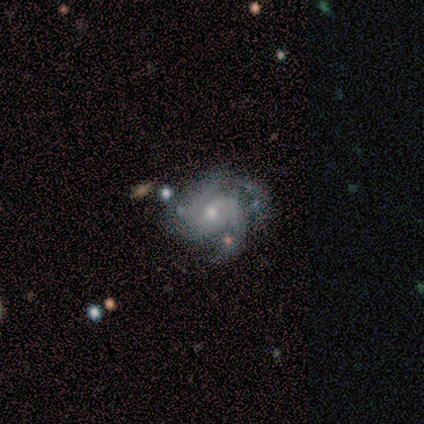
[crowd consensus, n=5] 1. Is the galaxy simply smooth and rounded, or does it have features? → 100% featured or disk, 0% smooth, 0% star or artifact.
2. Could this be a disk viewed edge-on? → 100% no, 0% yes.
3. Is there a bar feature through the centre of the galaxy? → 40% weak (tied), 40% no (tied), 20% strong.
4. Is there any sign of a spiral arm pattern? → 100% yes, 0% no.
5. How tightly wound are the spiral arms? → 40% medium (tied), 40% loose (tied), 20% tight.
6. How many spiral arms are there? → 60% 3, 20% 2, 20% can't tell, 0% 1, 0% 4, 0% more than 4.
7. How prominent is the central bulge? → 60% moderate, 40% small, 0% dominant, 0% large, 0% none.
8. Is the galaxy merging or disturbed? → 60% minor disturbance, 40% none, 0% major disturbance, 0% merger.